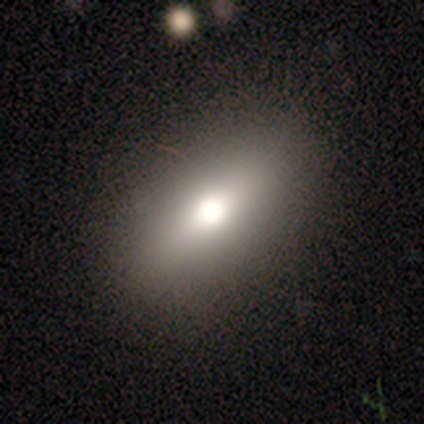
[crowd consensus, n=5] Volunteers were most divided on "how rounded": in between: 75%, cigar-shaped: 25%, round: 0%. More confident: smooth or featured — smooth (80%); merging — none (80%).